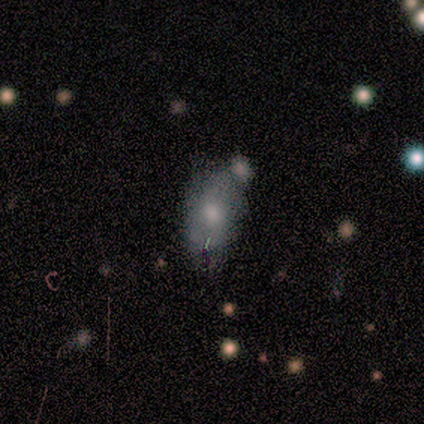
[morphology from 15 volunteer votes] Volunteers were most divided on "merging": none: 58%, minor disturbance: 33%, merger: 8%, major disturbance: 0%. More confident: how rounded — in between (89%); smooth or featured — smooth (60%).